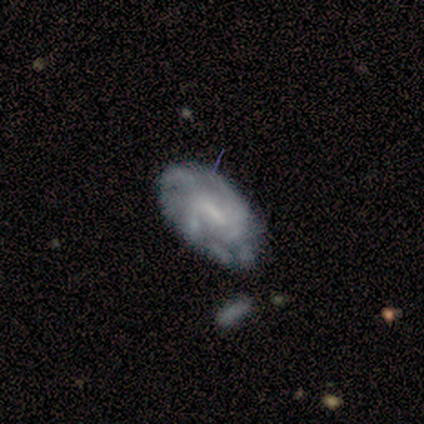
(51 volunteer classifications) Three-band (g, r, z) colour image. It shows a featured or disk galaxy (84%) with a weak bar (60%), medium (51%) spiral arms (86%) and a small central bulge (42%). Merging: none (52%).